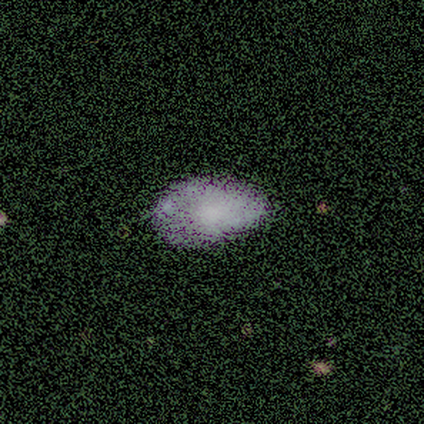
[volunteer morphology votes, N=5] Smooth or featured: smooth — 60% (featured or disk — 20%)
How rounded: in between — 100%
Merging: none — 50% (minor disturbance — 25%)